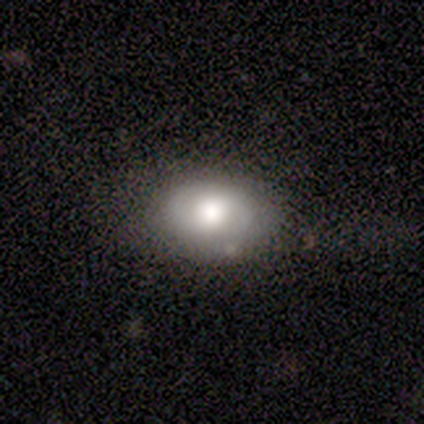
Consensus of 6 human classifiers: This is clearly a smooth galaxy (83%). How rounded: likely in between (60%). Merging: clearly none (100%).